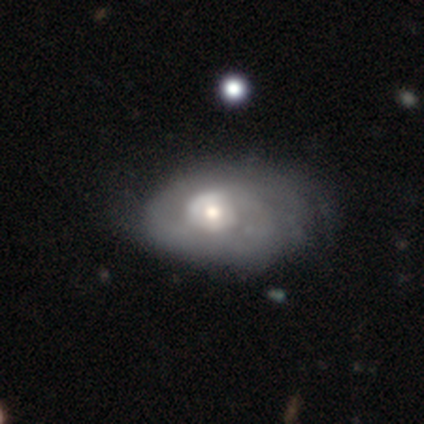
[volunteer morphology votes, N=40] Volunteers were most divided on "merging" (2-way tie): none: 29%, minor disturbance: 29%, major disturbance: 13%, merger: 3%. More confident: edge-on disk — no (100%); bar — no (93%); smooth or featured — featured or disk (68%); spiral arms — no (59%); bulge size — moderate (56%).